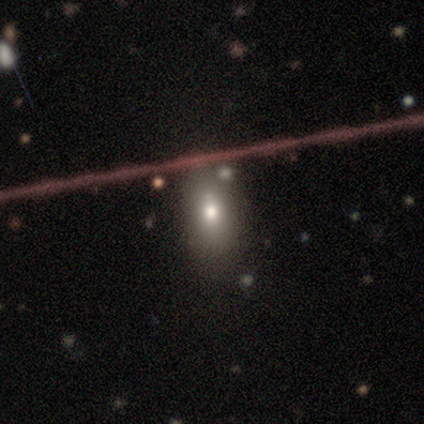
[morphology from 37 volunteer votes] A smooth galaxy with no disk features (76%) that is in between round and cigar-shaped (75%). Merging: none (70%).